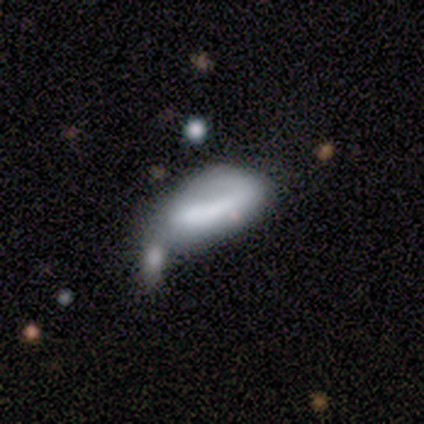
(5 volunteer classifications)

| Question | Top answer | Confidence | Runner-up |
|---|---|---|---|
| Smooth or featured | smooth | 60% | featured or disk (40%) |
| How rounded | in between | 67% | cigar-shaped (33%) |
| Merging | major disturbance | 40% | tied: merger (40%) |